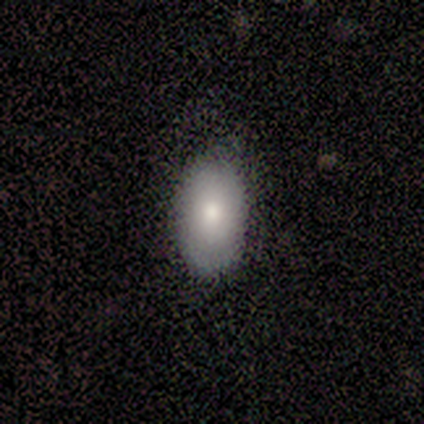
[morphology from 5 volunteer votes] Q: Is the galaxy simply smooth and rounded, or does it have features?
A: smooth — 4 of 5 (80%).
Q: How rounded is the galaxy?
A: in between — 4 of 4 (100%).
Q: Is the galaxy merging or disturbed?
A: none — 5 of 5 (100%).